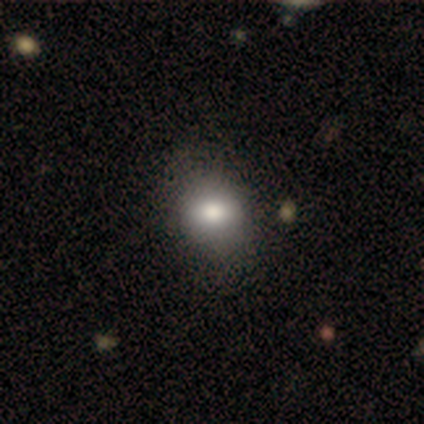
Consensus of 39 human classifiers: Smooth or featured? 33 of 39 (85%) said smooth. How rounded? 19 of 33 (58%) said in between. Merging? 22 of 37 (59%) said none.